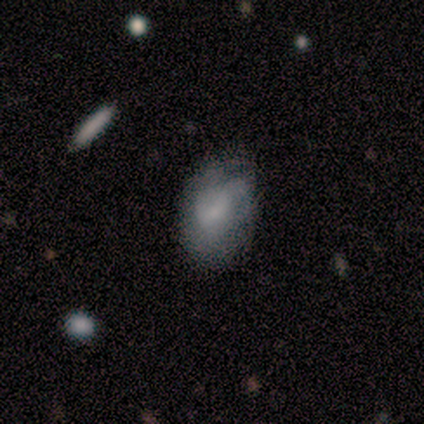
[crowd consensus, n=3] A featured or disk galaxy (100%) with a weak bar (67%), no spiral arms (100%) and a small central bulge (67%). Merging: none (33%, tied with minor disturbance and major disturbance).